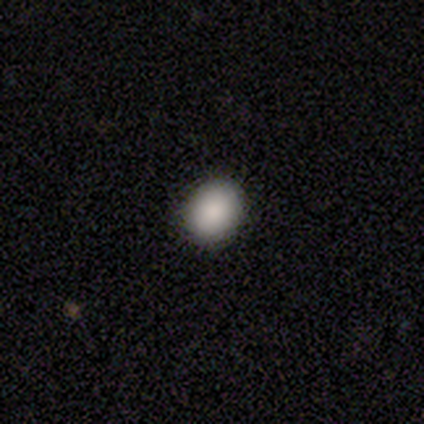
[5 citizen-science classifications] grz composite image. It shows a smooth galaxy with no disk features (100%) that is in between round and cigar-shaped (60%). Merging: none (100%).